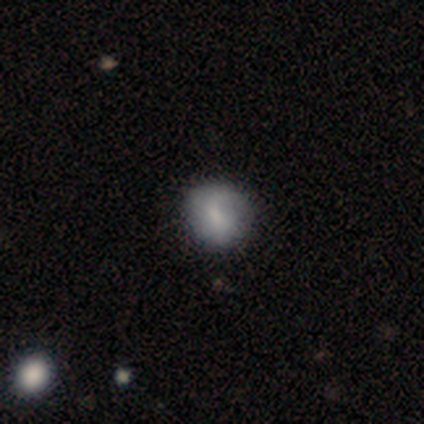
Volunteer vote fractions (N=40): Overall: smooth (75%). How rounded: round (80%). Merging: none (68%).